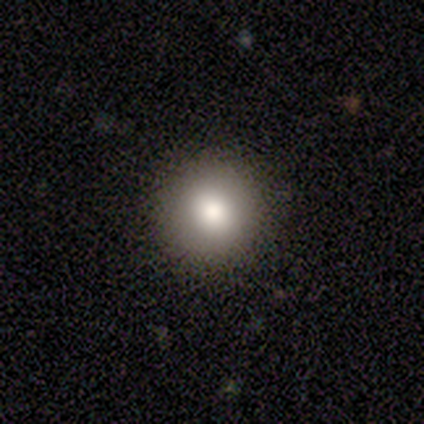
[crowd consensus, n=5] Morphology: type=smooth (100%); roundness=round (100%); merging=none (80%).